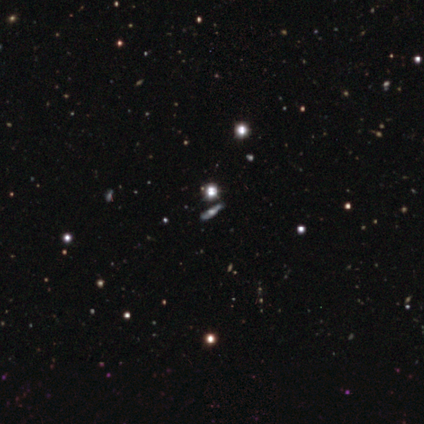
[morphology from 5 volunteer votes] This appears to be a featured or disk galaxy (40%, tied with star or artifact) viewed edge-on (50%, tied with no) with a rounded central bulge (100%). Merging: minor disturbance (100%).